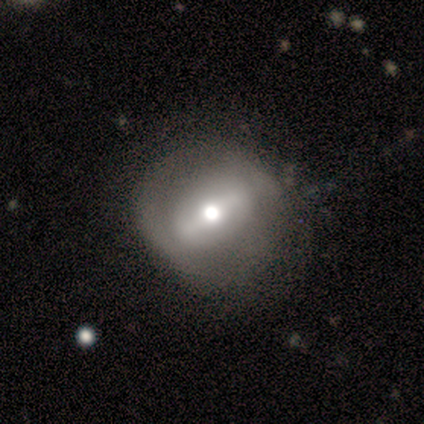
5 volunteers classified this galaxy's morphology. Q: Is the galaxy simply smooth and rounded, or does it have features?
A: featured or disk — 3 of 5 (60%).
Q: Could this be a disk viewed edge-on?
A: no — 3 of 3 (100%).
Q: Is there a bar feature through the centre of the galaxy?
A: no — 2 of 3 (67%).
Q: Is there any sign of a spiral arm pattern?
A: no — 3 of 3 (100%).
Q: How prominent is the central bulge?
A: small — 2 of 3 (67%).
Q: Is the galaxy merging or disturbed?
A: minor disturbance — 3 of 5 (60%).